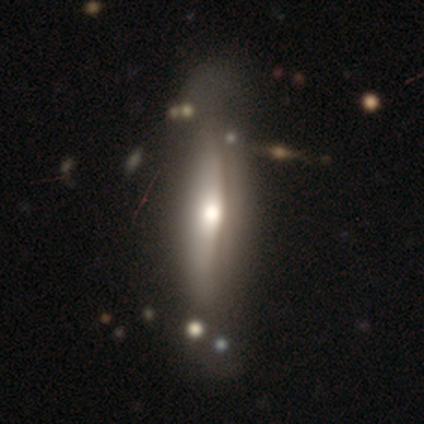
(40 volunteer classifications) Volunteers were most divided on "edge-on disk": yes: 69%, no: 31%. More confident: edge-on bulge — rounded (83%); merging — none (66%); smooth or featured — featured or disk (65%).